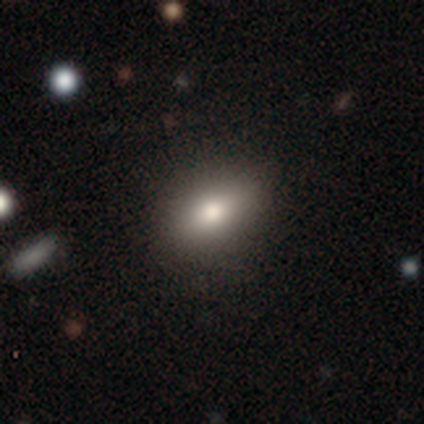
Morphology: type=smooth (57%); roundness=in between (100%); merging=none (100%).